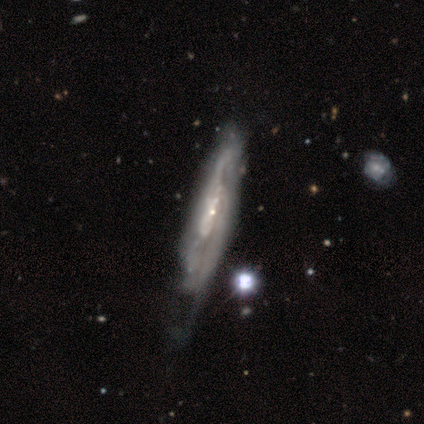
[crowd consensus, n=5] featured or disk 100%, smooth 0%, star or artifact 0%. Down the decision tree: edge-on disk — no (80%); bar — no (75%); spiral arms — yes (75%); spiral arm count — 2 (33%, tied with 3 and can't tell); spiral winding — medium (100%); bulge size — small (75%); merging — minor disturbance (60%).